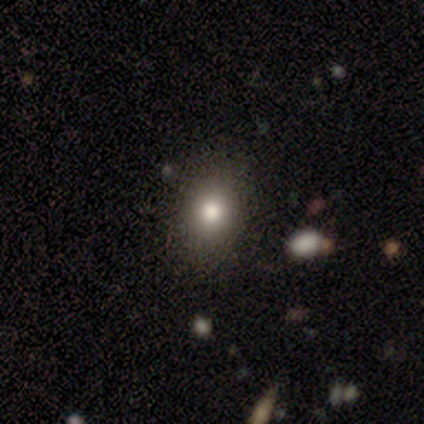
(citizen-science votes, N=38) A smooth galaxy with no disk features (74%) that is round (46%, tied with in between).

Vote fractions:
- Smooth or featured? smooth: 74% / star or artifact: 16% / featured or disk: 11%
- How rounded? round: 46% (tied) / in between: 46% (tied) / cigar-shaped: 7%
- Merging? none: 88% / minor disturbance: 12% / major disturbance: 0% / merger: 0%